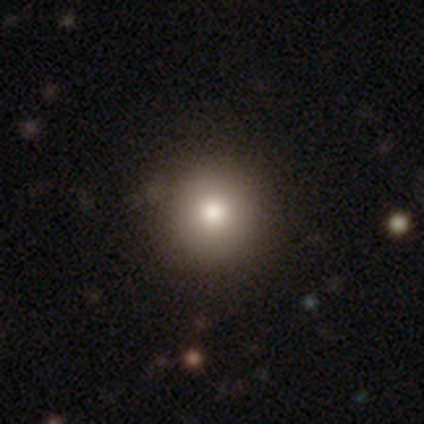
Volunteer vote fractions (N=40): smooth-or-featured: smooth: 75% | featured or disk: 12% | star or artifact: 12%
  how-rounded: round: 93% | in between: 3% | cigar-shaped: 3%
  merging: none: 97% | major disturbance: 3% | minor disturbance: 0% | merger: 0%